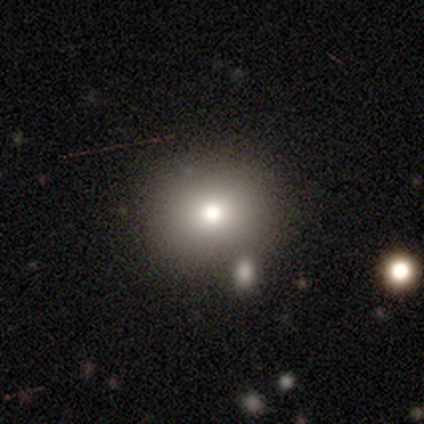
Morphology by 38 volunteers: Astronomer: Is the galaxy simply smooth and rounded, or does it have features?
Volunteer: smooth — 71%.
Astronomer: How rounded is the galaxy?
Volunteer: round — 85%.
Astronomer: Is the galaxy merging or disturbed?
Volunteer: none — 81%.